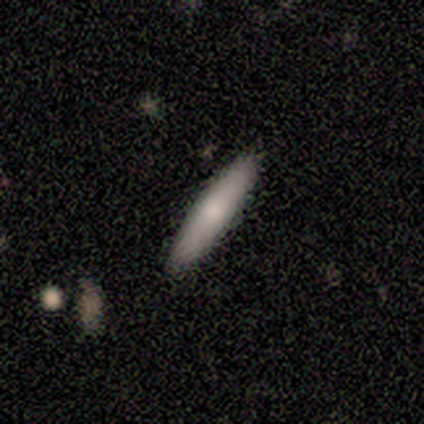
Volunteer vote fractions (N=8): Overall: smooth (62%; featured or disk 38%). How rounded: cigar-shaped (100%). Merging: none (100%).